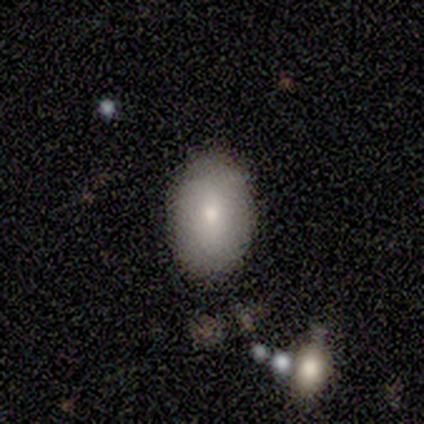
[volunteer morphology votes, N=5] Volunteers were most divided on "merging": minor disturbance: 60%, none: 20%, major disturbance: 20%, merger: 0%. More confident: smooth or featured — smooth (100%); how rounded — in between (80%).